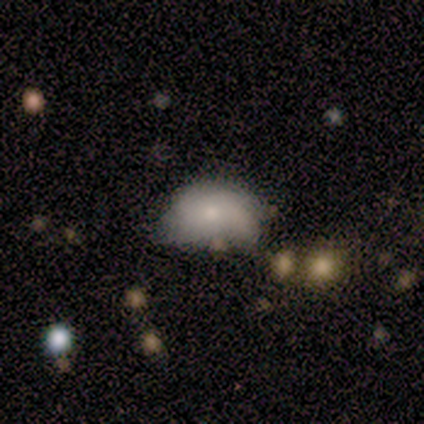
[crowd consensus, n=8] smooth 38% (tied), featured or disk 38% (tied), star or artifact 25%. Down the decision tree: how rounded — in between (100%); merging — minor disturbance (67%).